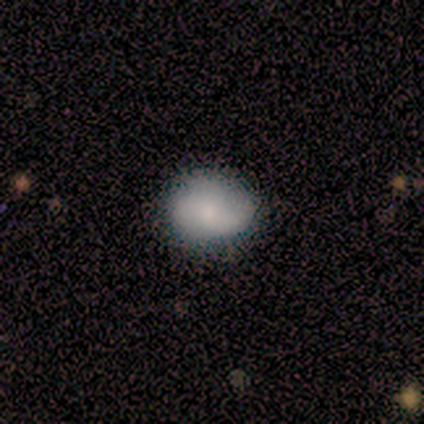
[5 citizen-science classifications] A smooth galaxy with no disk features (100%) that is round (60%). Merging: minor disturbance (60%).